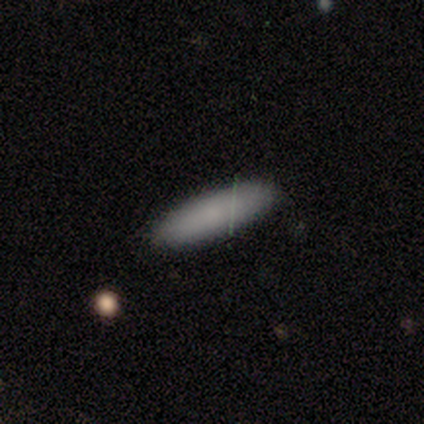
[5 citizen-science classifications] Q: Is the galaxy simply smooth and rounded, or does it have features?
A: smooth — 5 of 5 (100%).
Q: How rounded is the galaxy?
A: cigar-shaped — 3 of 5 (60%).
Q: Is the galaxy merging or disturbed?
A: none — 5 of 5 (100%).